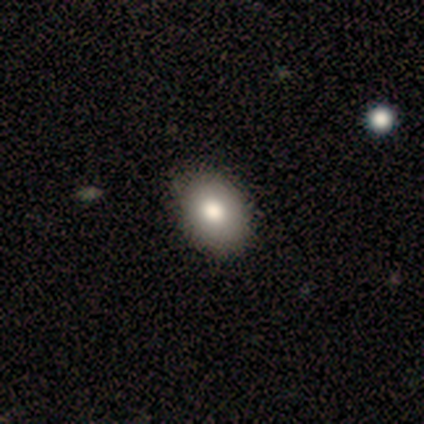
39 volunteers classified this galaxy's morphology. Q: Smooth or featured?
A: smooth (95%); runner-up: featured or disk (5%)
Q: How rounded?
A: in between (70%); runner-up: round (27%)
Q: Merging?
A: none (59%); runner-up: minor disturbance (5%)